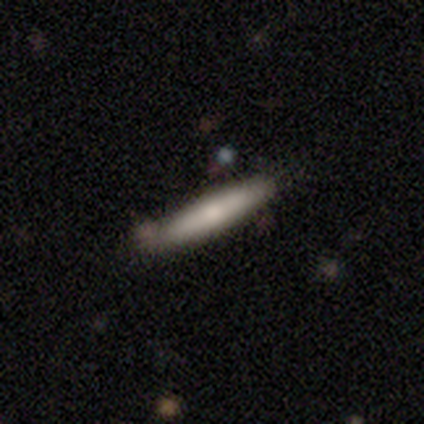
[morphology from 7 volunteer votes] Smooth or featured? 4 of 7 (57%) said featured or disk. Edge-on disk? 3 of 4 (75%) said yes. Edge-on bulge? 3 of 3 (100%) said rounded. Merging? 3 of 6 (50%) said none.